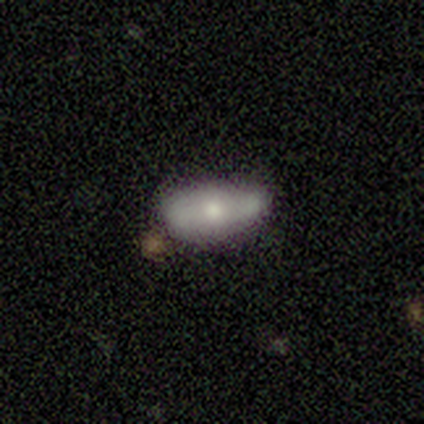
smooth_or_featured: smooth (p=0.75) [alt: featured or disk p=0.25]
how_rounded: in between (p=1.00)
merging: minor disturbance (p=0.50) [alt: none p=0.25]